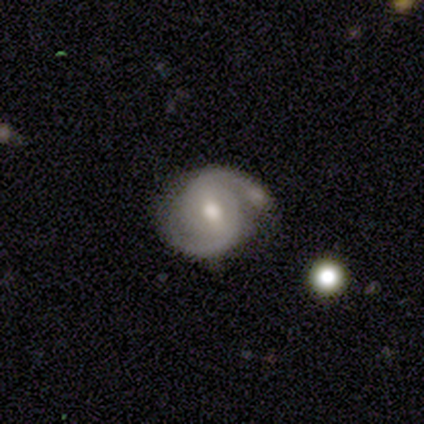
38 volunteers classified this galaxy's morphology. type=featured or disk (87%); edge-on=no (100%); bar=weak (45%); spiral arms=yes (100%); winding=tight (45%, tied with medium); arm count=2 (94%); bulge=moderate (73%); merging=none (67%).